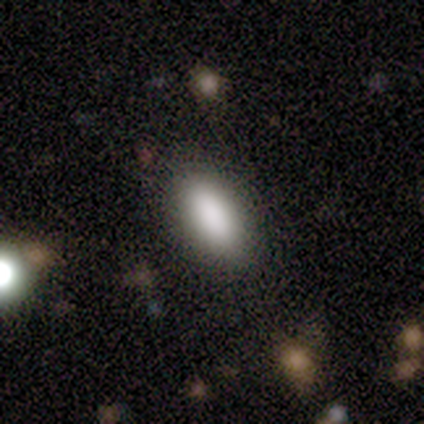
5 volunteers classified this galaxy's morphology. This appears to be a smooth galaxy with no disk features (100%) that is in between round and cigar-shaped (100%). Merging: none (100%).